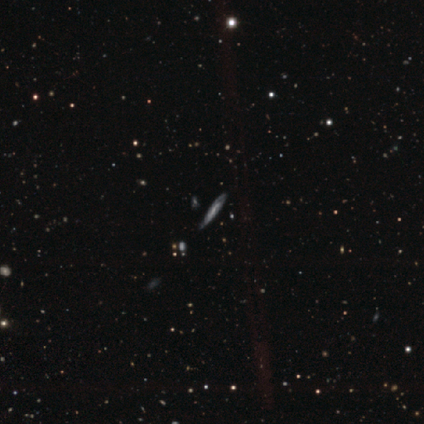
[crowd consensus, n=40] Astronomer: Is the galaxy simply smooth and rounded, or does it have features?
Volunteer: featured or disk — 65%.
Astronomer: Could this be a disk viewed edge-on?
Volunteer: no — 54% (runner-up: yes, 46%).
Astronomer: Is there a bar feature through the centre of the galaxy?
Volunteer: no — 71%.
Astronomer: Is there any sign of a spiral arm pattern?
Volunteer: yes — 79%.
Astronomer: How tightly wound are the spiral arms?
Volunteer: tight — 45%, tied with medium at 45%.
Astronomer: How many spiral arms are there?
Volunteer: can't tell — 73%.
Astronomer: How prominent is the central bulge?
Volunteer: moderate — 36%, tied with small at 36%.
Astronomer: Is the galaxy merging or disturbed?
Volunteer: none — 46%.